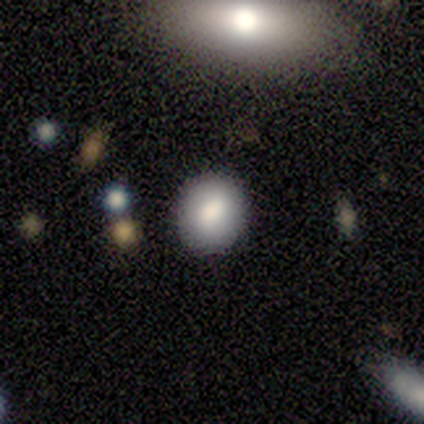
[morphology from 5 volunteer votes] Volunteers were most divided on "smooth or featured": smooth: 60%, star or artifact: 40%, featured or disk: 0%. More confident: how rounded — round (100%); merging — none (100%).